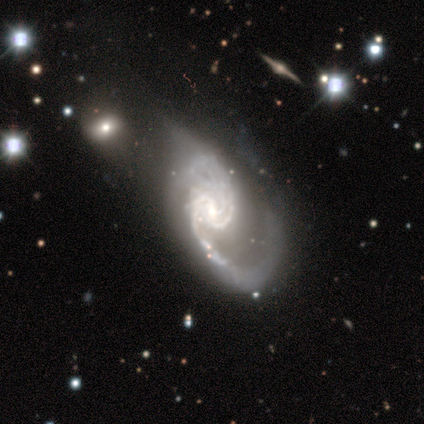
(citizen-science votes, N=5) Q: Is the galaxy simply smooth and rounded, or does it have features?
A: featured or disk — 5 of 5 (100%).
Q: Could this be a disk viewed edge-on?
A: no — 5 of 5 (100%).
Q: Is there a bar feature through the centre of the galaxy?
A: no — 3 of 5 (60%).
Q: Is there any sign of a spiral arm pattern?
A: yes — 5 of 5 (100%).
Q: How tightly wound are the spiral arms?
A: medium — 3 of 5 (60%).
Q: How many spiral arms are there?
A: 2 — 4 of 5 (80%).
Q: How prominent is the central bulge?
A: moderate — 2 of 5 (40%, tied with small).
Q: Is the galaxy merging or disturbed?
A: none — 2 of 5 (40%, tied with major disturbance).